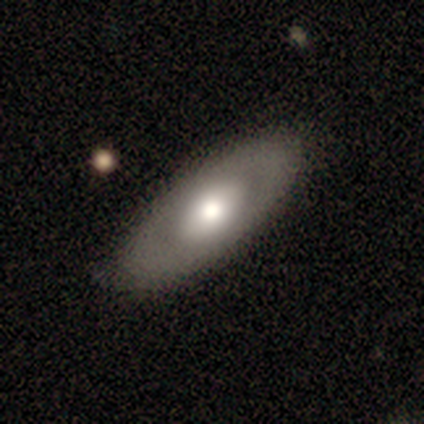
Morphology: type=featured or disk (52%); edge-on=no (81%); bar=no (82%); spiral arms=no (94%); bulge=moderate (71%); merging=none (65%).